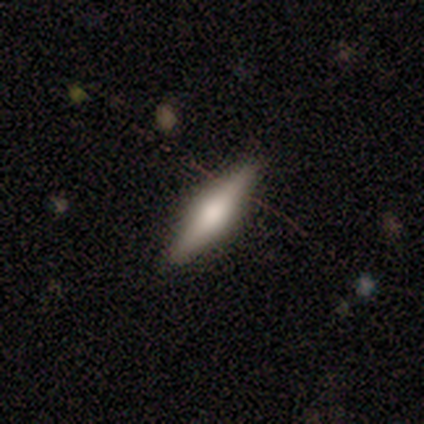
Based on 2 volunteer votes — smooth 50% (tied), featured or disk 50% (tied), star or artifact 0%. Down the decision tree: how rounded — in between (100%); merging — none (100%).